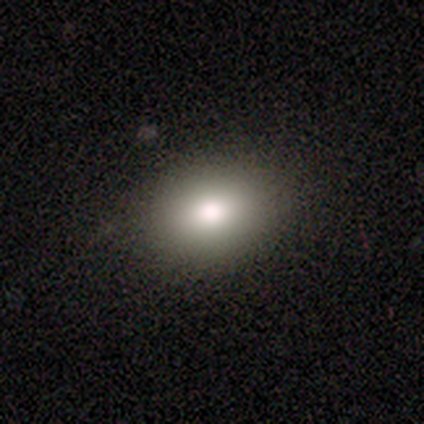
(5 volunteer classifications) This appears to be a smooth galaxy with no disk features (80%) that is in between round and cigar-shaped (75%). Merging: none (100%).